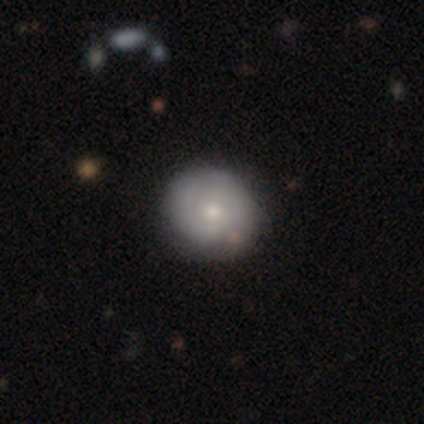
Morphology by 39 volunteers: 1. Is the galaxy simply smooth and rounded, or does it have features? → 54% featured or disk, 46% smooth, 0% star or artifact.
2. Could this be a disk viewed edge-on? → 100% no, 0% yes.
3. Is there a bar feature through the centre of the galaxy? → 95% no, 5% weak, 0% strong.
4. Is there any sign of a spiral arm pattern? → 67% yes, 33% no.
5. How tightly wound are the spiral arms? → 43% medium, 36% tight, 21% loose.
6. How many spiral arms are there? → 57% 2, 36% can't tell, 7% more than 4, 0% 1, 0% 3, 0% 4.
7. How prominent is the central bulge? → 48% small, 43% moderate, 5% large, 5% none, 0% dominant.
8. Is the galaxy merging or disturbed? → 64% none, 5% major disturbance, 3% minor disturbance, 3% merger.